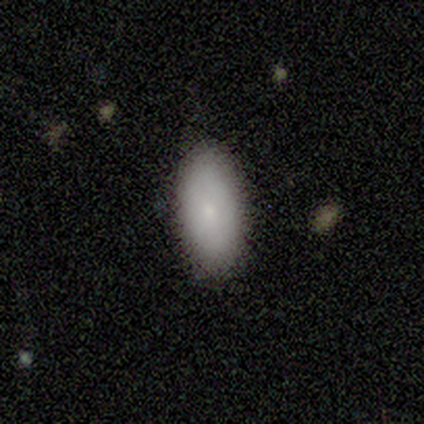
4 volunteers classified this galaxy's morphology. Overall: smooth (50%; featured or disk 25%). How rounded: in between (100%). Merging: none (67%; minor disturbance 33%).